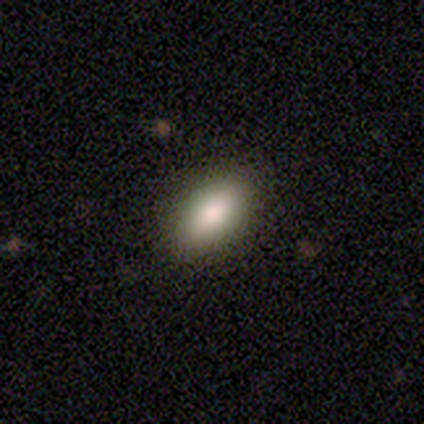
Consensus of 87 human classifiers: Smooth or featured? 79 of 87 (91%) said smooth. How rounded? 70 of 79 (89%) said in between. Merging? 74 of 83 (89%) said none.